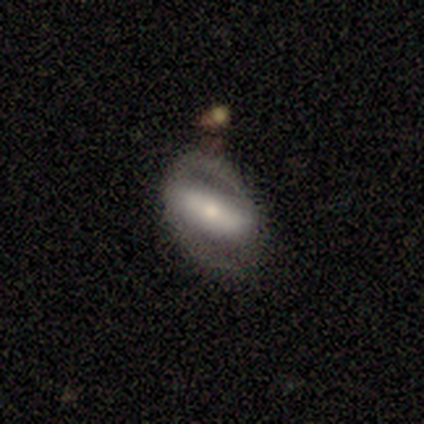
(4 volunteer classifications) smooth-or-featured: featured or disk: 75% | smooth: 25% | star or artifact: 0%
  disk-edge-on: no: 100% | yes: 0%
    bar: strong: 67% | weak: 33% | no: 0%
    has-spiral-arms: yes: 67% | no: 33%
      spiral-winding: medium: 50% (tied) | loose: 50% (tied) | tight: 0%
      spiral-arm-count: 2: 100% | 1: 0% | 3: 0% | 4: 0% | more than 4: 0% | can't tell: 0%
    bulge-size: moderate: 67% | large: 33% | dominant: 0% | small: 0% | none: 0%
  merging: none: 75% | minor disturbance: 25% | major disturbance: 0% | merger: 0%